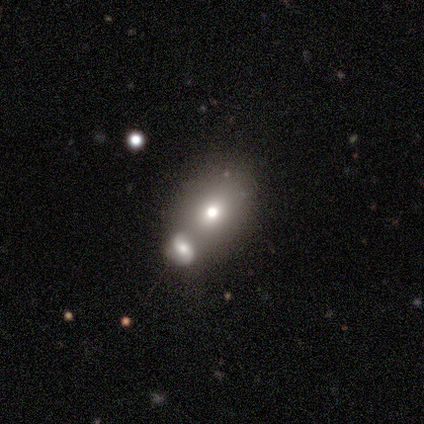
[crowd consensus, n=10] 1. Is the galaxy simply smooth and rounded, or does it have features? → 70% smooth, 20% featured or disk, 10% star or artifact.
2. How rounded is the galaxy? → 71% in between, 29% round, 0% cigar-shaped.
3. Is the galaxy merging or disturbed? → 56% none, 22% minor disturbance, 22% merger, 0% major disturbance.